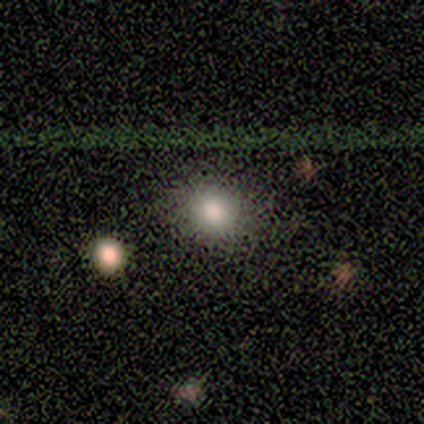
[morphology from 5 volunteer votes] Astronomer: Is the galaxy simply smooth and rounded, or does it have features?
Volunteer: smooth — 40%, tied with star or artifact at 40%.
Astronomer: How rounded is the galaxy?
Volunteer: round — 100%.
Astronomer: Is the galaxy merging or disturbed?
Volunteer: none — 100%.